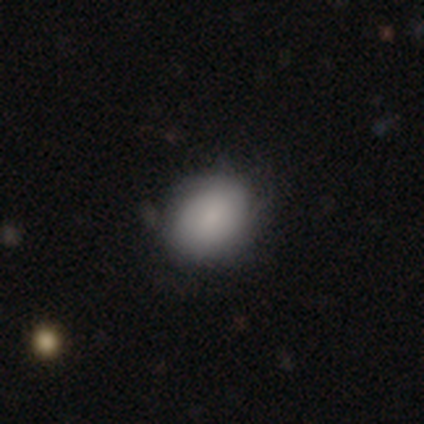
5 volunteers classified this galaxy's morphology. This is clearly a smooth galaxy (100%). How rounded: clearly in between (80%). Merging: clearly none (100%).